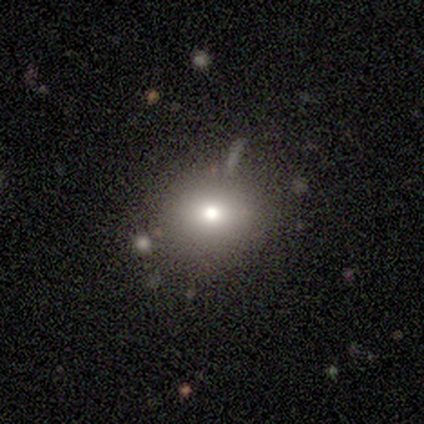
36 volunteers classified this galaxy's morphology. This appears to be a smooth galaxy with no disk features (72%) that is round (81%). Merging: none (87%).